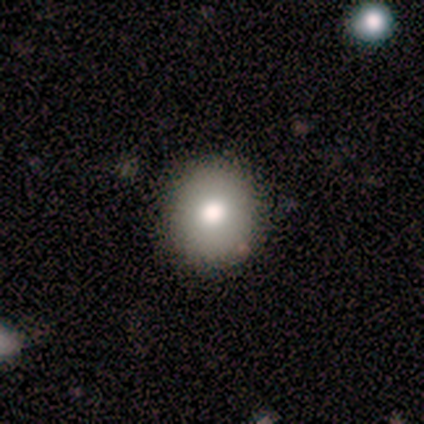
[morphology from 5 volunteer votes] Overall: smooth (80%). How rounded: round (75%). Merging: none (100%).